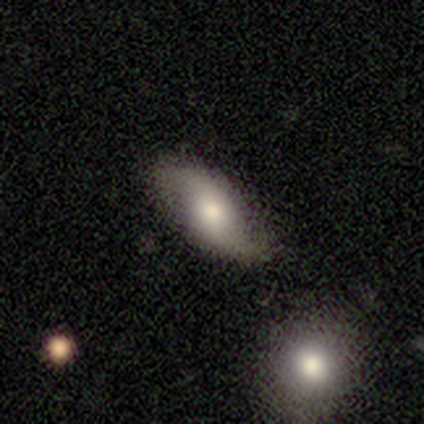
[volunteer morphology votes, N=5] This is likely a smooth galaxy (60%). How rounded: clearly in between (100%). Merging: clearly none (100%).